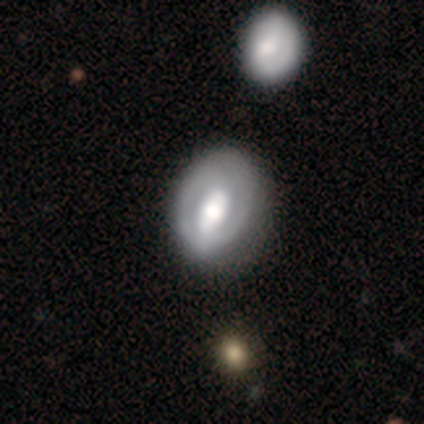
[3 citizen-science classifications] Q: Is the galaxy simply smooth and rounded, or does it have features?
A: featured or disk — 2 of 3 (67%).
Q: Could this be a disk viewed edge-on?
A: yes — 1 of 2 (50%, tied with no).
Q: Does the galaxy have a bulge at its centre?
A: rounded — 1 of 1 (100%).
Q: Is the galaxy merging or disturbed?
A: none — 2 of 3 (67%).